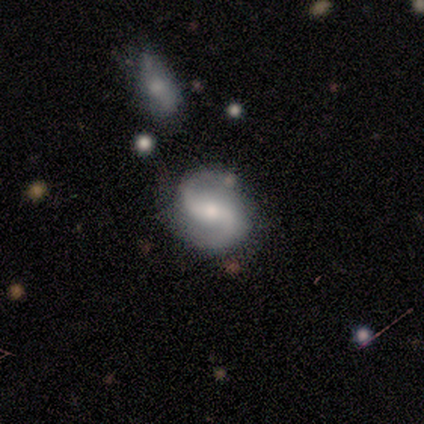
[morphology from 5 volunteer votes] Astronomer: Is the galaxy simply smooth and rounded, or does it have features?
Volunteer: featured or disk — 80%.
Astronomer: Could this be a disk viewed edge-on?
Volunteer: no — 100%.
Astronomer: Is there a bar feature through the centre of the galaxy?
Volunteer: weak — 50%, tied with no at 50%.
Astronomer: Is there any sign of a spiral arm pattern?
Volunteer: yes — 100%.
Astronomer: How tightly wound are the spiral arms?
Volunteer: medium — 50%, tied with loose at 50%.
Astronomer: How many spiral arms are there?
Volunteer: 2 — 100%.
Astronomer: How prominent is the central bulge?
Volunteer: moderate — 50%.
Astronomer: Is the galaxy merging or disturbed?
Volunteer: none — 80%.